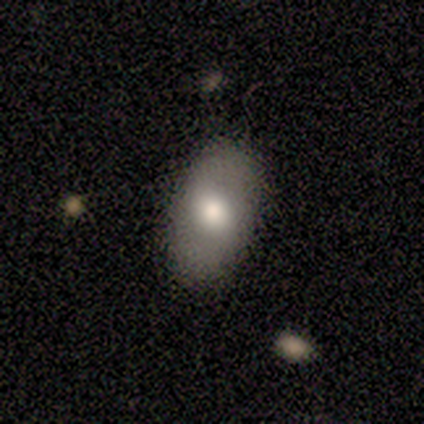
This appears to be a smooth galaxy with no disk features (50%) that is in between round and cigar-shaped (75%). Merging: none (100%).